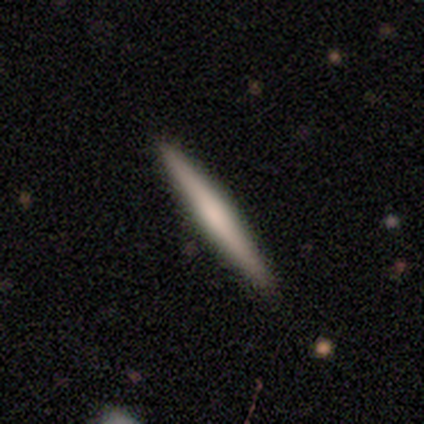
featured or disk 51%, smooth 47%, star or artifact 2%. Down the decision tree: edge-on disk — yes (93%); edge-on bulge — none (50%); merging — none (89%).